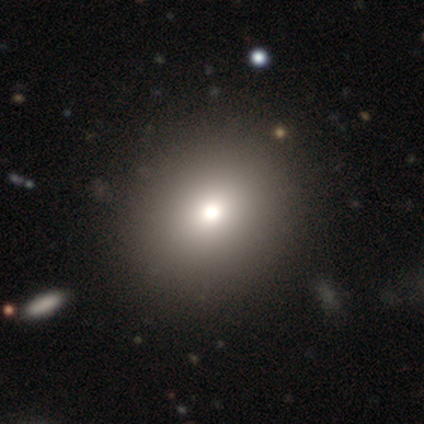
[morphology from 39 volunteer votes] This is likely a smooth galaxy (72%). How rounded: clearly round (86%). Merging: likely none (66%).